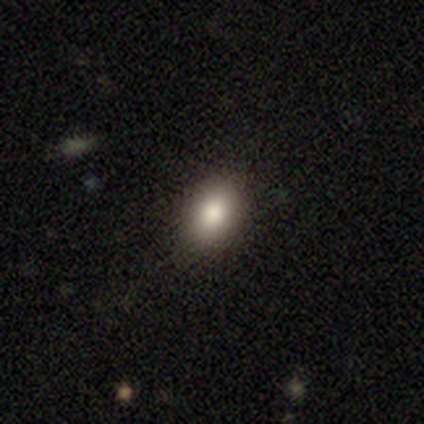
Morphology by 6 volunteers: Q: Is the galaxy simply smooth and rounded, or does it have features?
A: smooth — 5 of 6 (83%).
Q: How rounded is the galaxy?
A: in between — 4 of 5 (80%).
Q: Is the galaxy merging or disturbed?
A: none — 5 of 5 (100%).